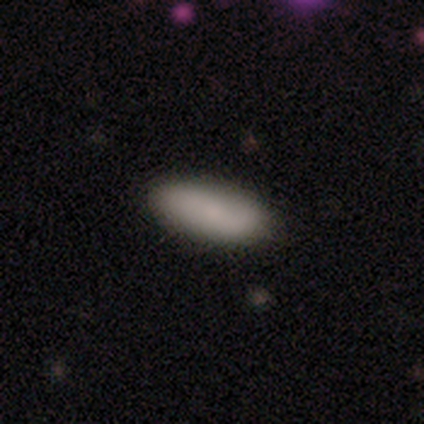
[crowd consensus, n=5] A smooth galaxy with no disk features (80%) that is in between round and cigar-shaped (75%).

Vote fractions:
- Smooth or featured? smooth: 80% / featured or disk: 20% / star or artifact: 0%
- How rounded? in between: 75% / cigar-shaped: 25% / round: 0%
- Merging? none: 80% / minor disturbance: 20% / major disturbance: 0% / merger: 0%